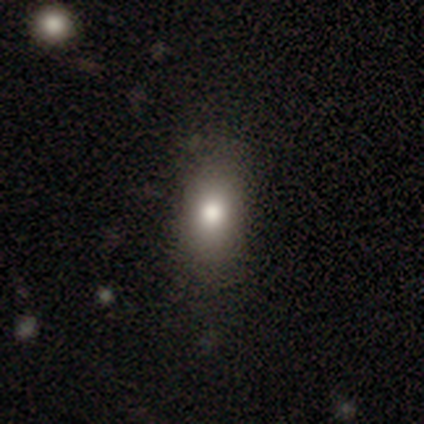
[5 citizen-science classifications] This appears to be a smooth galaxy with no disk features (80%) that is in between round and cigar-shaped (100%). Merging: none (75%).